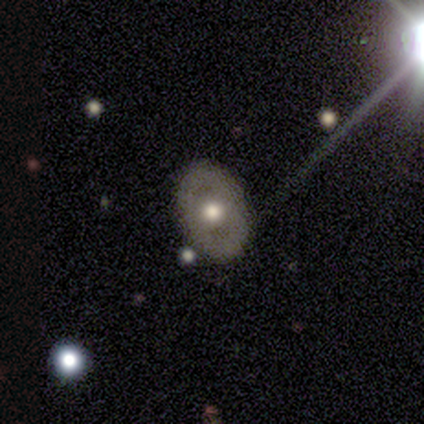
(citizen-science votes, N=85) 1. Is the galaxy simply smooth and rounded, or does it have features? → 67% featured or disk, 27% smooth, 6% star or artifact.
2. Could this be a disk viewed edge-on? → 98% no, 2% yes.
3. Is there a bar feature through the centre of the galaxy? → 89% no, 9% weak, 2% strong.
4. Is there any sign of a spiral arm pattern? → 86% no, 14% yes.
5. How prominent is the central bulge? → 70% moderate, 21% large, 7% small, 2% none, 0% dominant.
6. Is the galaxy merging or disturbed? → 86% none, 5% minor disturbance, 5% major disturbance, 4% merger.